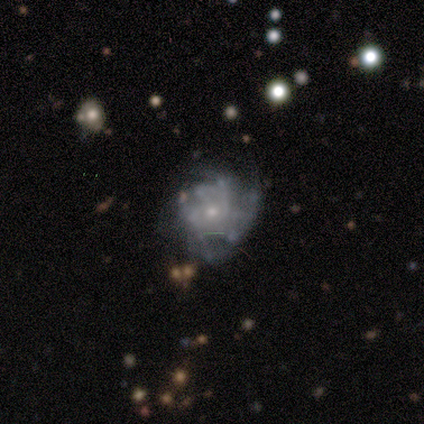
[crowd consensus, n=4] smooth-or-featured: featured or disk: 75% | smooth: 25% | star or artifact: 0%
  disk-edge-on: no: 100% | yes: 0%
    bar: weak: 100% | strong: 0% | no: 0%
    has-spiral-arms: yes: 100% | no: 0%
      spiral-winding: medium: 67% | tight: 33% | loose: 0%
      spiral-arm-count: can't tell: 67% | 4: 33% | 1: 0% | 2: 0% | 3: 0% | more than 4: 0%
    bulge-size: small: 100% | dominant: 0% | large: 0% | moderate: 0% | none: 0%
  merging: none: 50% (tied) | minor disturbance: 50% (tied) | major disturbance: 0% | merger: 0%